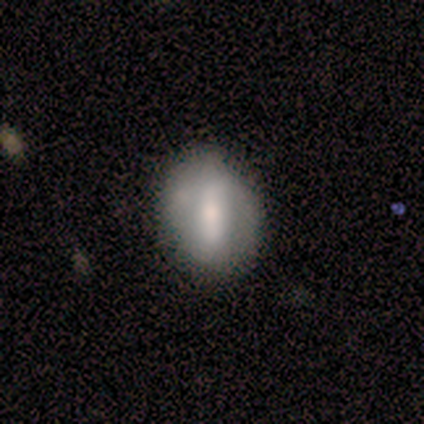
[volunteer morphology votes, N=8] This is possibly a featured or disk galaxy (50%). It is likely not viewed edge-on (75%). Bar: clearly strong (100%). Spiral arm pattern: clearly yes (100%). Spiral arm count: clearly 2 (100%). Spiral winding: likely tight (67%). Central bulge: marginally large (33%, tied with moderate and small). Merging: possibly none (57%).